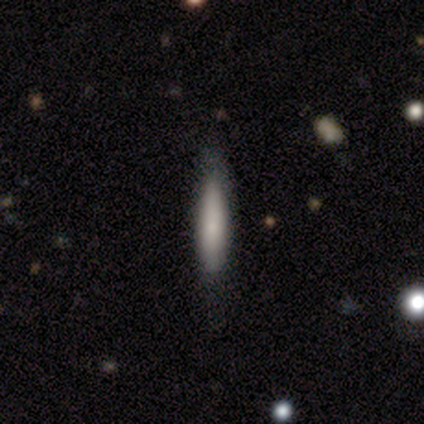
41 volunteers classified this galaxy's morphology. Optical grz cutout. It shows a smooth galaxy with no disk features (73%) that is cigar-shaped (83%). Merging: none (66%).